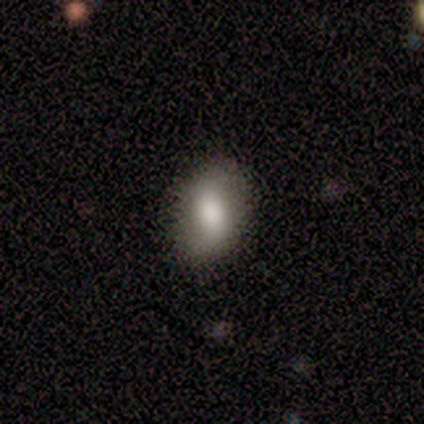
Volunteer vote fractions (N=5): smooth_or_featured: featured or disk (p=0.80) [alt: smooth p=0.20]
disk_edge_on: no (p=1.00)
bar: weak (p=0.50) [tied with: no p=0.50]
has_spiral_arms: yes (p=0.50) [tied with: no p=0.50]
spiral_winding: loose (p=1.00)
spiral_arm_count: 2 (p=1.00)
bulge_size: dominant (p=0.25) [tied with: large p=0.25, moderate p=0.25, small p=0.25]
merging: none (p=1.00)